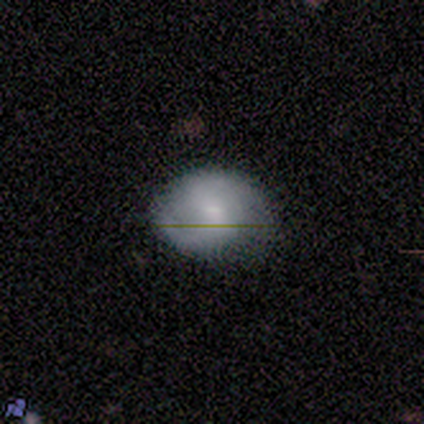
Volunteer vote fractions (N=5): This is likely a featured or disk galaxy (60%). It is clearly not viewed edge-on (100%). Bar: clearly weak (100%). Spiral arm pattern: clearly yes (100%). Spiral arm count: likely 2 (67%). Spiral winding: likely medium (67%). Central bulge: clearly small (100%). Merging: clearly none (80%).